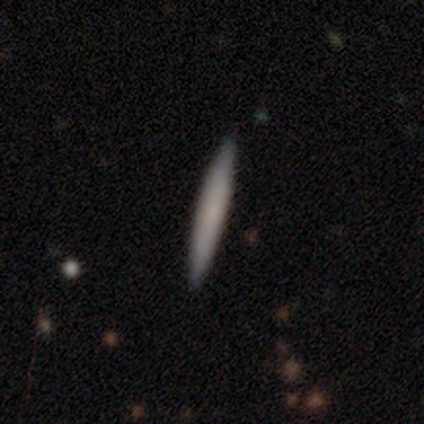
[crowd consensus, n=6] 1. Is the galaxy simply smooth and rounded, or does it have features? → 83% smooth, 17% featured or disk, 0% star or artifact.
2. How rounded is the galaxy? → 100% cigar-shaped, 0% round, 0% in between.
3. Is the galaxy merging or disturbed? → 83% none, 17% major disturbance, 0% minor disturbance, 0% merger.